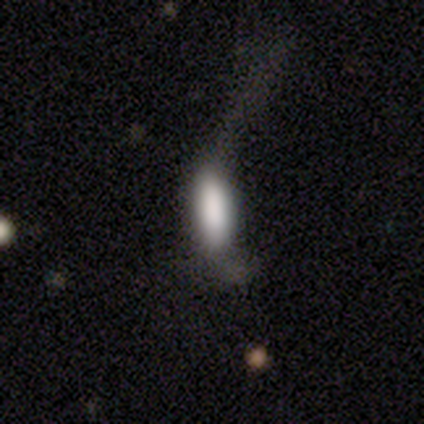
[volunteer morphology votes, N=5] This appears to be a smooth galaxy with no disk features (80%) that is cigar-shaped (75%). Merging: major disturbance (50%).